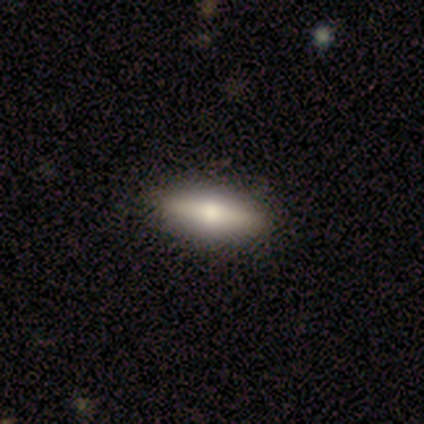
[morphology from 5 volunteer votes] Smooth or featured? smooth (80%)
How rounded? in between (75%)
Merging? none (100%)